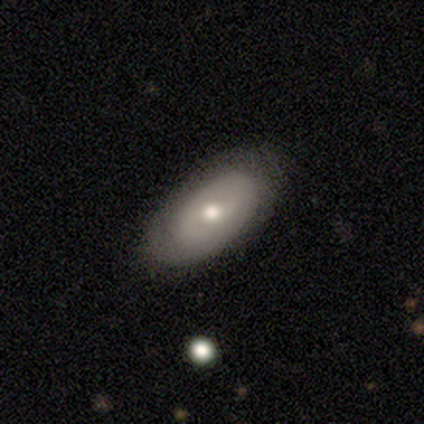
This appears to be a featured or disk galaxy (60%) with no bar (100%), 1 (50%, tied with can't tell) tight (100%) spiral arms (100%) and a moderate central bulge (50%, tied with small). Merging: none (60%).